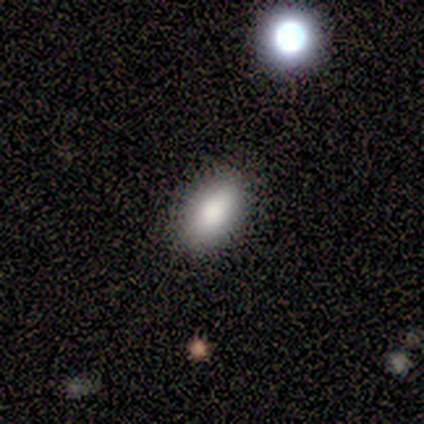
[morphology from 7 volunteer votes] Smooth or featured?
  - smooth: 71% *
  - featured or disk: 14%
  - star or artifact: 14%
How rounded?
  - in between: 100% *
  - round: 0%
  - cigar-shaped: 0%
Merging?
  - none: 100% *
  - minor disturbance: 0%
  - major disturbance: 0%
  - merger: 0%